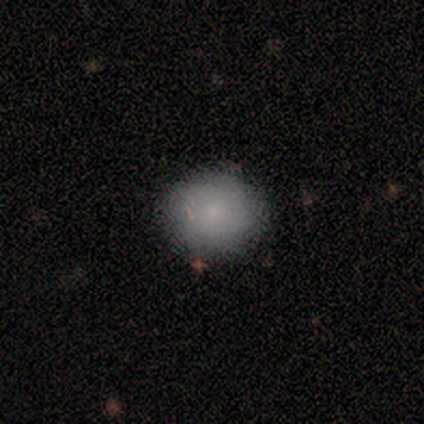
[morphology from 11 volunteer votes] type=smooth (82%); roundness=round (78%); merging=none (89%).